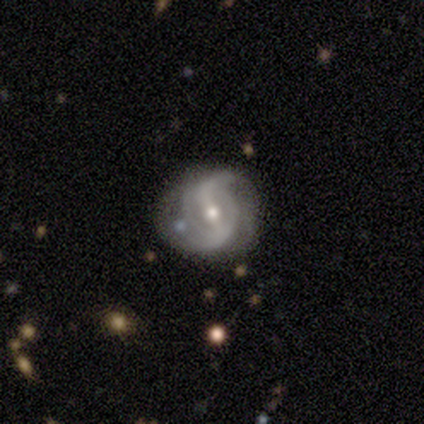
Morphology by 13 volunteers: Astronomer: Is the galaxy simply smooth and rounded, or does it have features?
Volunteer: featured or disk — 100%.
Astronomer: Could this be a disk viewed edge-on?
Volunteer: no — 100%.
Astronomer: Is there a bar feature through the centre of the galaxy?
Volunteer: strong — 46% (runner-up: weak, 38%).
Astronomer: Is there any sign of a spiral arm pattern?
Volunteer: yes — 92%.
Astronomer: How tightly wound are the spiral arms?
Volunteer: medium — 50% (runner-up: loose, 33%).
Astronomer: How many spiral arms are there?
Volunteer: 2 — 83%.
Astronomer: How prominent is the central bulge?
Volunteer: small — 54% (runner-up: moderate, 46%).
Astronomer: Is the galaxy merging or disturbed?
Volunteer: none — 77%.